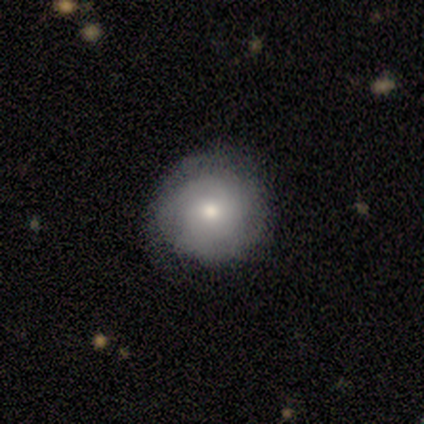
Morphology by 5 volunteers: Smooth or featured: smooth — 60% (featured or disk — 20%)
How rounded: round — 100%
Merging: none — 75% (minor disturbance — 25%)